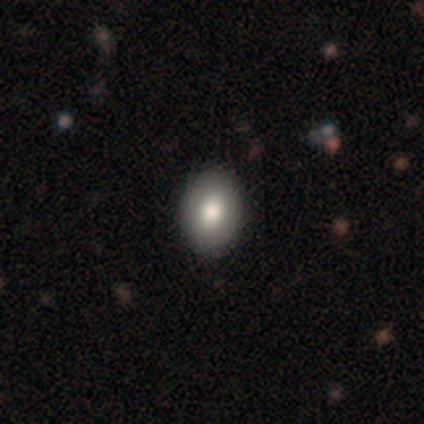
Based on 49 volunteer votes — Volunteers were most divided on "how rounded": in between: 80%, round: 20%, cigar-shaped: 0%. More confident: merging — none (94%); smooth or featured — smooth (84%).